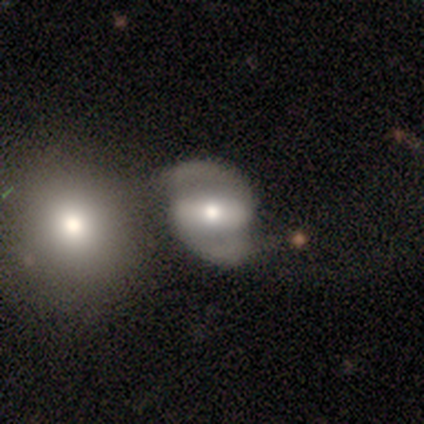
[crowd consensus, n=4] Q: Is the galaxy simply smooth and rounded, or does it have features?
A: featured or disk — 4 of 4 (100%).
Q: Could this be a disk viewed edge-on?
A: no — 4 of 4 (100%).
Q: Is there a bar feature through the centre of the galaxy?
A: strong — 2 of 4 (50%).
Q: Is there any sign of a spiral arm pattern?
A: yes — 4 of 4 (100%).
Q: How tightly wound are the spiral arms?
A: medium — 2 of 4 (50%).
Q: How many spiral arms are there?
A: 2 — 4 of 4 (100%).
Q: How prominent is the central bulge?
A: moderate — 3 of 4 (75%).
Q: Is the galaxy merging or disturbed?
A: none — 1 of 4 (25%, tied with minor disturbance, major disturbance and merger).